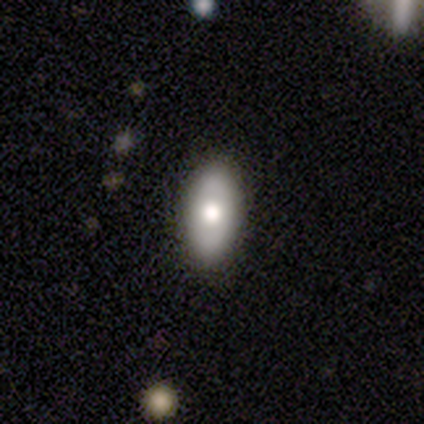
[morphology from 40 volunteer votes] Q: Smooth or featured?
A: smooth (60%); runner-up: featured or disk (30%)
Q: How rounded?
A: in between (88%); runner-up: cigar-shaped (8%)
Q: Merging?
A: none (58%); runner-up: minor disturbance (11%)